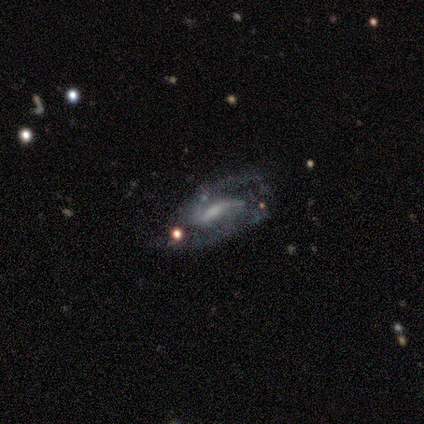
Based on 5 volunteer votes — A featured or disk galaxy (100%) with a strong bar (60%), 2 (100%) medium (100%) spiral arms (100%) and a moderate central bulge (40%, tied with small).

Vote fractions:
- Smooth or featured? featured or disk: 100% / smooth: 0% / star or artifact: 0%
- Edge-on disk? no: 100% / yes: 0%
- Bar? strong: 60% / weak: 40% / no: 0%
- Spiral arms? yes: 100% / no: 0%
- Spiral winding? medium: 100% / tight: 0% / loose: 0%
- Spiral arm count? 2: 100% / 1: 0% / 3: 0% / 4: 0% / more than 4: 0% / can't tell: 0%
- Bulge size? moderate: 40% (tied) / small: 40% (tied) / large: 20% / dominant: 0% / none: 0%
- Merging? none: 60% / minor disturbance: 40% / major disturbance: 0% / merger: 0%